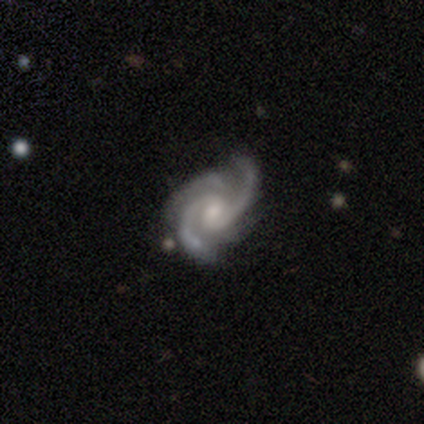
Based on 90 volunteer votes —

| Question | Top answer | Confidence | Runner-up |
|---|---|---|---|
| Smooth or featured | featured or disk | 97% | smooth (2%) |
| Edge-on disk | no | 100% | — |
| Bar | no | 48% | weak (43%) |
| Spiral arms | yes | 98% | no (2%) |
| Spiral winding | medium | 49% | tight (42%) |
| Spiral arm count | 2 | 48% | 3 (45%) |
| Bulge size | moderate | 53% | small (40%) |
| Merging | none | 69% | minor disturbance (22%) |